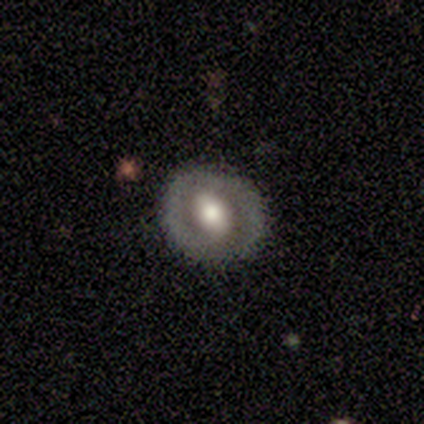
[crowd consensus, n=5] Morphology: type=smooth (80%); roundness=round (75%); merging=none (80%).